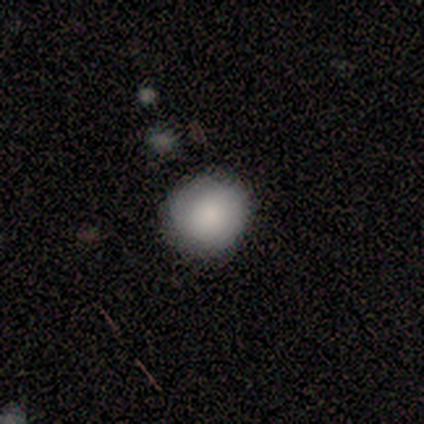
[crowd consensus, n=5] Smooth or featured? 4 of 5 (80%) said smooth. How rounded? 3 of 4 (75%) said round. Merging? 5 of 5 (100%) said none.